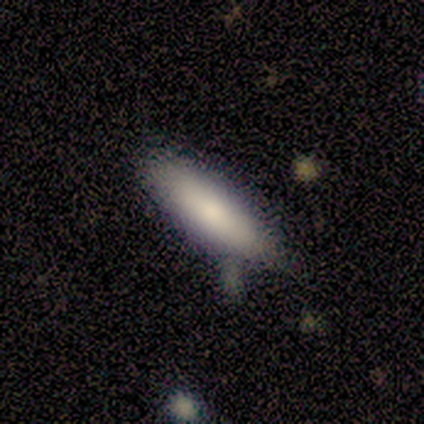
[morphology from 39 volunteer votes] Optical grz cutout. It shows a smooth galaxy with no disk features (87%) that is in between round and cigar-shaped (53%). Merging: none (79%).